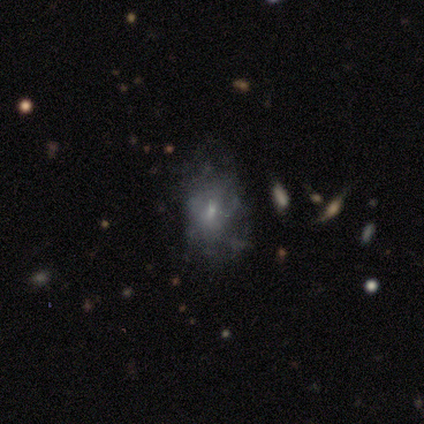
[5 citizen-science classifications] Smooth or featured? 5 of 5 (100%) said featured or disk. Edge-on disk? 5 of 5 (100%) said no. Bar? 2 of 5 (40%, tied with no) said weak. Spiral arms? 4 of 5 (80%) said no. Bulge size? 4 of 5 (80%) said small. Merging? 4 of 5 (80%) said none.